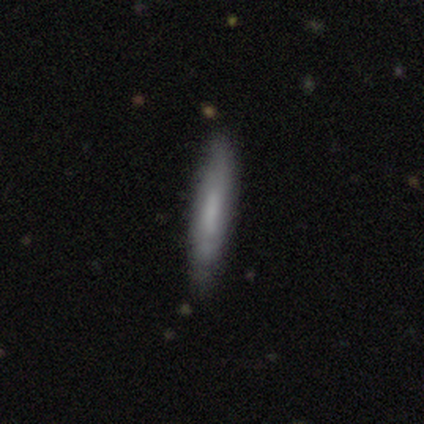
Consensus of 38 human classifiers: Smooth or featured?
  - smooth: 55% *
  - featured or disk: 39%
  - star or artifact: 5%
How rounded?
  - cigar-shaped: 81% *
  - in between: 19%
  - round: 0%
Merging?
  - none: 44% *
  - minor disturbance: 17%
  - major disturbance: 3%
  - merger: 3%